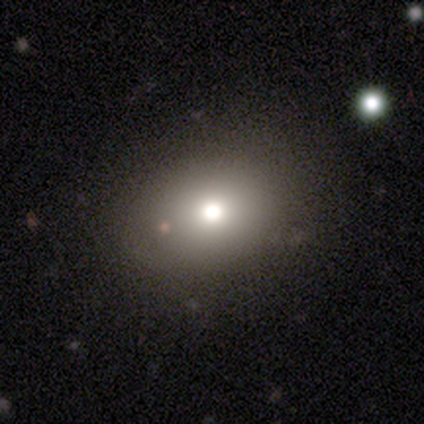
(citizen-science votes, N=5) Smooth or featured: smooth — 60% (star or artifact — 40%)
How rounded: round — 67% (in between — 33%)
Merging: none — 67% (major disturbance — 33%)